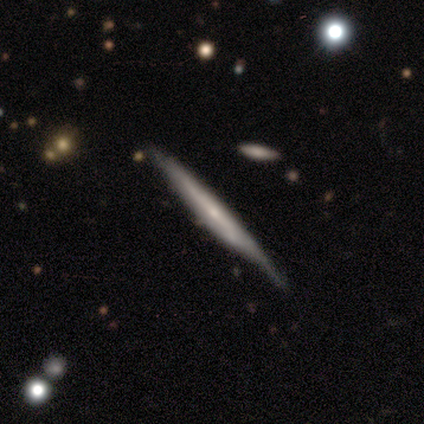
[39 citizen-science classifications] A featured or disk galaxy (69%) viewed edge-on (96%) with no central bulge (46%). Merging: none (62%).